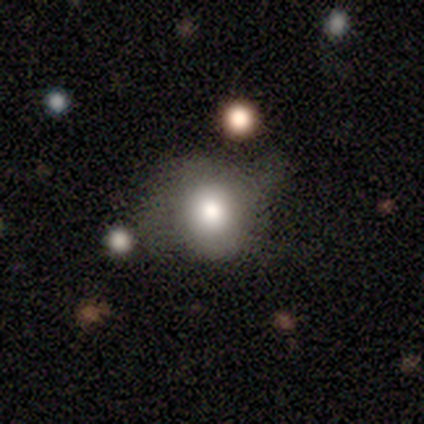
smooth_or_featured: smooth (p=0.79) [alt: featured or disk p=0.10]
how_rounded: round (p=0.71) [alt: in between p=0.29]
merging: none (p=0.43) [alt: minor disturbance p=0.31]